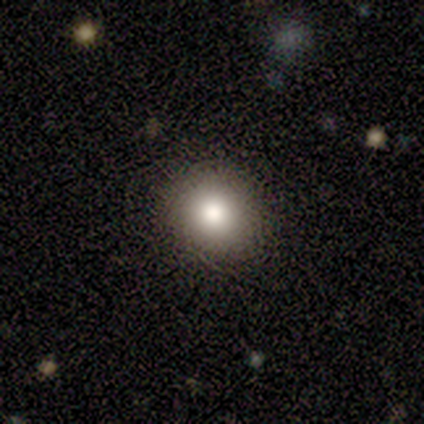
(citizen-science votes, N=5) Smooth or featured? 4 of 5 (80%) said smooth. How rounded? 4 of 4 (100%) said round. Merging? 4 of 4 (100%) said none.